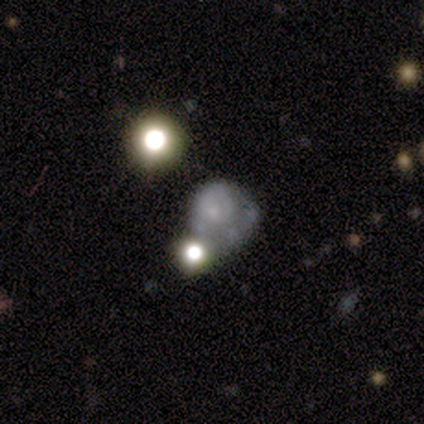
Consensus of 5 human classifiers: Q: Smooth or featured?
A: featured or disk (60%); runner-up: smooth (20%)
Q: Edge-on disk?
A: no (100%)
Q: Bar?
A: no (100%)
Q: Spiral arms?
A: no (100%)
Q: Bulge size?
A: none (100%)
Q: Merging?
A: minor disturbance (50%); runner-up: none (25%)